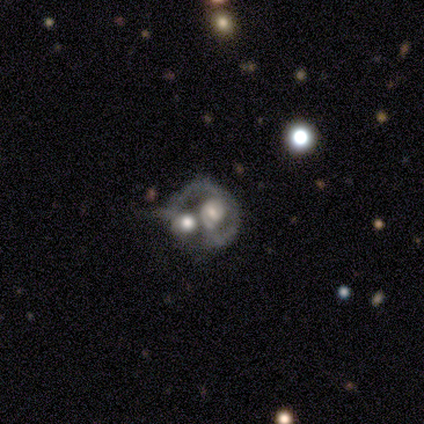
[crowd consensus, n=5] Volunteers were most divided on "smooth or featured": smooth: 60%, featured or disk: 40%, star or artifact: 0%. More confident: how rounded — round (100%); merging — merger (80%).